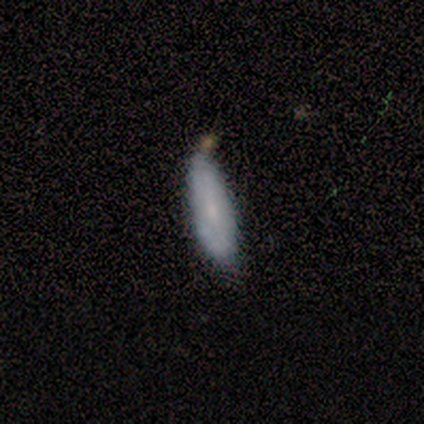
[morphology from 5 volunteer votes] Volunteers were most divided on "smooth or featured": smooth: 60%, featured or disk: 40%, star or artifact: 0%. More confident: how rounded — cigar-shaped (67%); merging — none (60%).